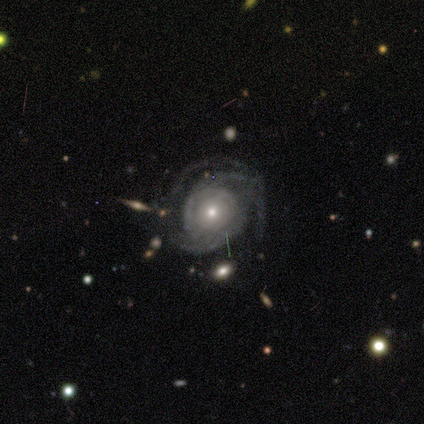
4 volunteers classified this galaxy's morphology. A featured or disk galaxy (100%) with no bar (100%), 3 (50%, tied with can't tell) tight (50%, tied with medium) spiral arms (100%) and a moderate central bulge (75%).

Vote fractions:
- Smooth or featured? featured or disk: 100% / smooth: 0% / star or artifact: 0%
- Edge-on disk? no: 100% / yes: 0%
- Bar? no: 100% / strong: 0% / weak: 0%
- Spiral arms? yes: 100% / no: 0%
- Spiral winding? tight: 50% (tied) / medium: 50% (tied) / loose: 0%
- Spiral arm count? 3: 50% (tied) / can't tell: 50% (tied) / 1: 0% / 2: 0% / 4: 0% / more than 4: 0%
- Bulge size? moderate: 75% / small: 25% / dominant: 0% / large: 0% / none: 0%
- Merging? none: 50% (tied) / major disturbance: 50% (tied) / minor disturbance: 0% / merger: 0%